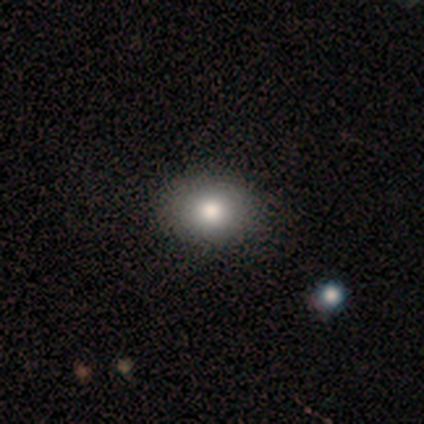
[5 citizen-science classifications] Smooth or featured?
  - smooth: 80% *
  - featured or disk: 20%
  - star or artifact: 0%
How rounded?
  - in between: 75% *
  - round: 25%
  - cigar-shaped: 0%
Merging?
  - none: 80% *
  - minor disturbance: 20%
  - major disturbance: 0%
  - merger: 0%